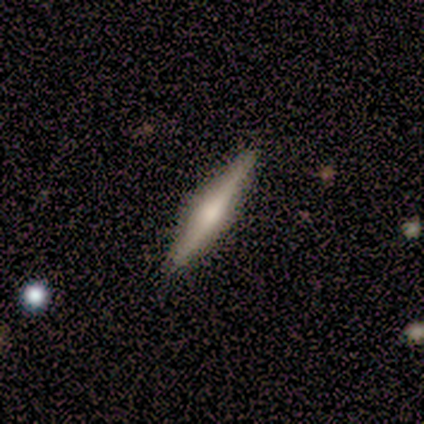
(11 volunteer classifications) A smooth galaxy with no disk features (64%) that is cigar-shaped (86%). Merging: none (100%).